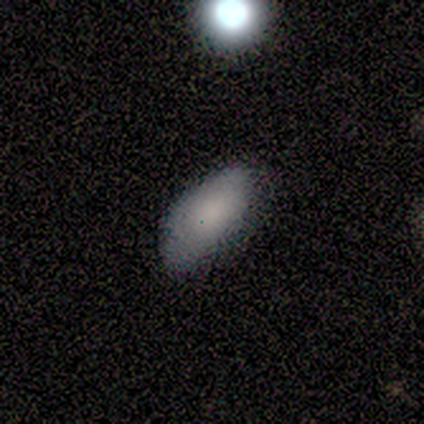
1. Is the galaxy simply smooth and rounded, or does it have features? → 77% smooth, 13% featured or disk, 10% star or artifact.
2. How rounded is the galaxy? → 93% in between, 7% cigar-shaped, 0% round.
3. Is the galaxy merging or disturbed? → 66% none, 31% minor disturbance, 3% major disturbance, 0% merger.